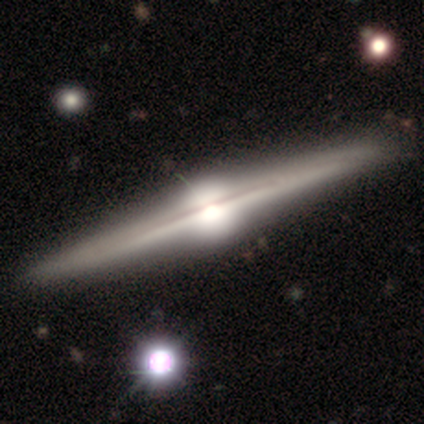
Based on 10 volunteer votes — A featured or disk galaxy (100%) viewed edge-on (100%) with a rounded central bulge (100%).

Vote fractions:
- Smooth or featured? featured or disk: 100% / smooth: 0% / star or artifact: 0%
- Edge-on disk? yes: 100% / no: 0%
- Edge-on bulge? rounded: 100% / boxy: 0% / none: 0%
- Merging? none: 100% / minor disturbance: 0% / major disturbance: 0% / merger: 0%